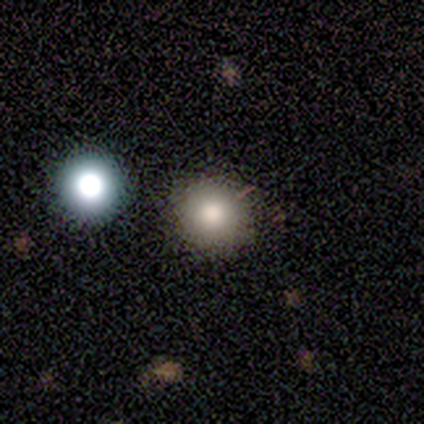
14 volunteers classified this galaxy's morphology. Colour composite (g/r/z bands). It shows a smooth galaxy with no disk features (79%) that is round (100%). Merging: none (92%).